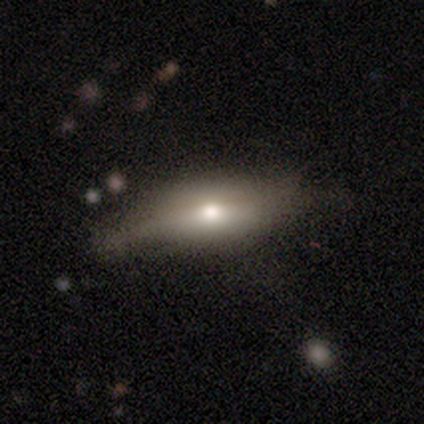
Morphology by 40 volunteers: smooth 62%, featured or disk 32%, star or artifact 5%. Down the decision tree: how rounded — in between (64%); merging — none (47%).